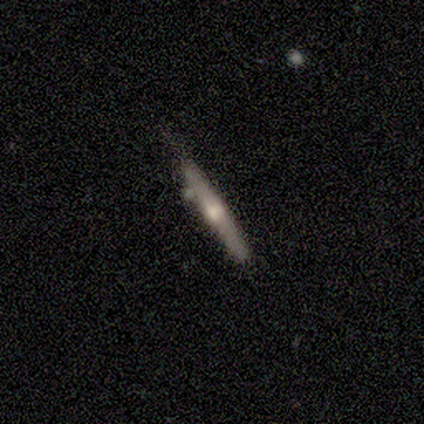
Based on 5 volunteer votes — Morphology: type=smooth (60%); roundness=cigar-shaped (100%); merging=none (100%).